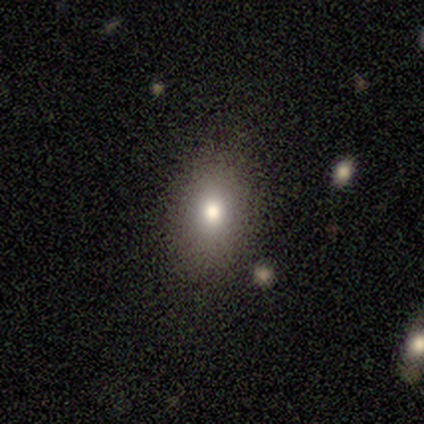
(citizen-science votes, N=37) smooth 62%, star or artifact 27%, featured or disk 11%. Down the decision tree: how rounded — in between (83%); merging — none (89%).